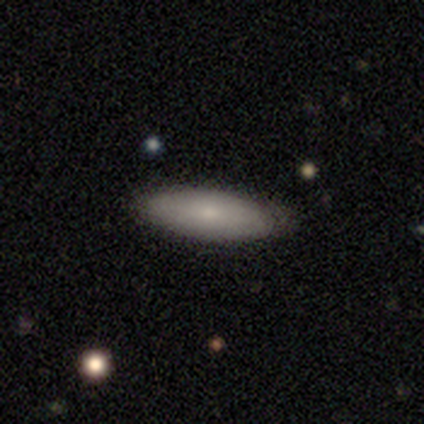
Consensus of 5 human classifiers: Smooth or featured? 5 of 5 (100%) said smooth. How rounded? 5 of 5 (100%) said in between. Merging? 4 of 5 (80%) said none.